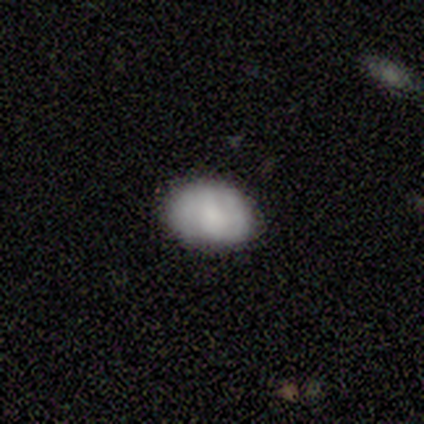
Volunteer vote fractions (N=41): smooth 63%, featured or disk 24%, star or artifact 12%. Down the decision tree: how rounded — in between (92%); merging — none (92%).